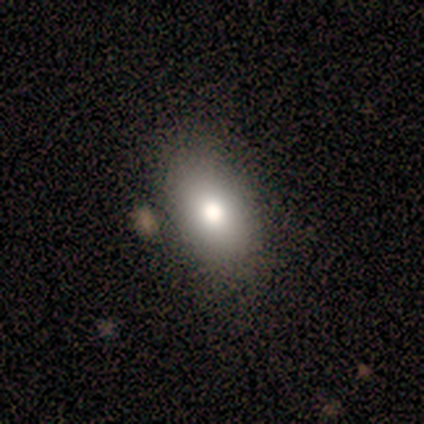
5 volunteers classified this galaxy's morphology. Smooth or featured? 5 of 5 (100%) said smooth. How rounded? 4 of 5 (80%) said in between. Merging? 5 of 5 (100%) said none.